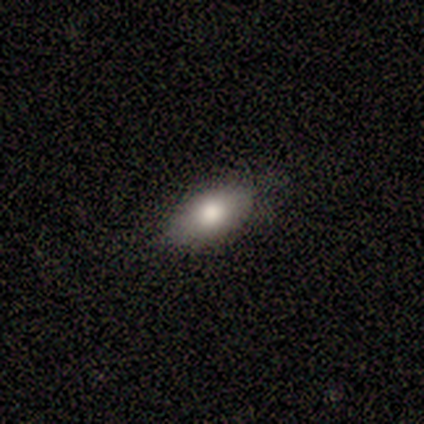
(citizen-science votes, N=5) smooth-or-featured: smooth: 100% | featured or disk: 0% | star or artifact: 0%
  how-rounded: in between: 100% | round: 0% | cigar-shaped: 0%
  merging: none: 100% | minor disturbance: 0% | major disturbance: 0% | merger: 0%